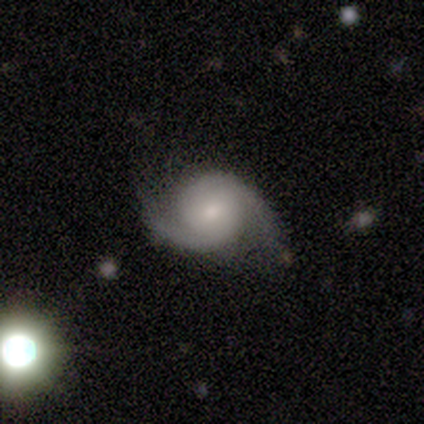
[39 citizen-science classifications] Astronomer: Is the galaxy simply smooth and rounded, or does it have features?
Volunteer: featured or disk — 92%.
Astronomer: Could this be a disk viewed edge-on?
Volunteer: no — 94%.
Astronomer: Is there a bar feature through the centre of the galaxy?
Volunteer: no — 71%.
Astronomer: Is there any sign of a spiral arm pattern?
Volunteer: yes — 94%.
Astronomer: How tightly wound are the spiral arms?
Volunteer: medium — 47% (runner-up: tight, 34%).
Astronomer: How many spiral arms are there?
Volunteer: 2 — 94%.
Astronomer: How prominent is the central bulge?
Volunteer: small — 56% (runner-up: moderate, 38%).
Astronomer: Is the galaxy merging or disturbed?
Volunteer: none — 81%.